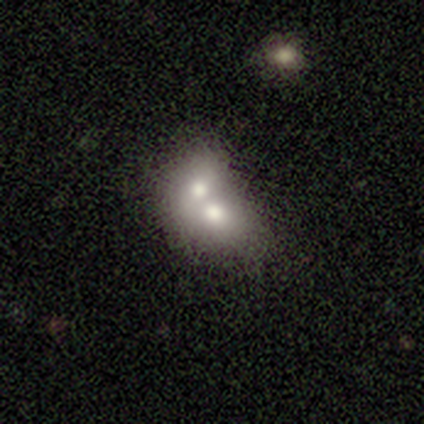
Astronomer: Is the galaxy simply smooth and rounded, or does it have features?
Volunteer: smooth — 100%.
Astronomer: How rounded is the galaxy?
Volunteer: round — 60% (runner-up: in between, 40%).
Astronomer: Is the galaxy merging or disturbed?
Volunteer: merger — 80%.